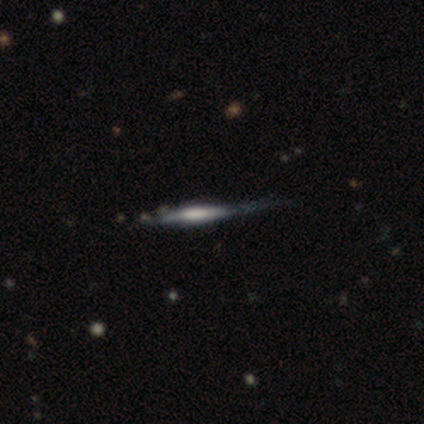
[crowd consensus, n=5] Morphology: type=featured or disk (60%); edge-on=yes (100%); edge-on bulge=rounded (67%); merging=none (60%).